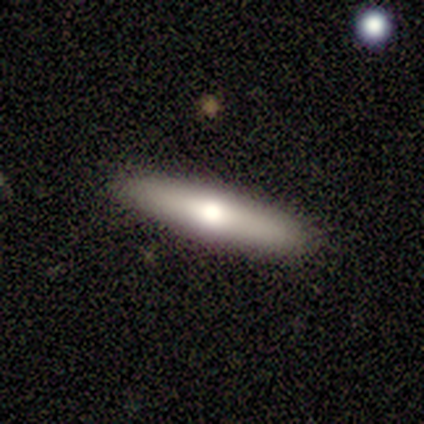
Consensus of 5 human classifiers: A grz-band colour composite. It shows a smooth galaxy with no disk features (80%) that is cigar-shaped (100%). Merging: none (100%).